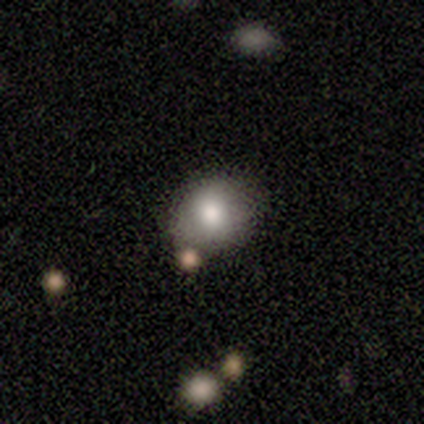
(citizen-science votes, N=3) smooth-or-featured: smooth: 67% | featured or disk: 33% | star or artifact: 0%
  how-rounded: round: 50% (tied) | in between: 50% (tied) | cigar-shaped: 0%
  merging: none: 100% | minor disturbance: 0% | major disturbance: 0% | merger: 0%